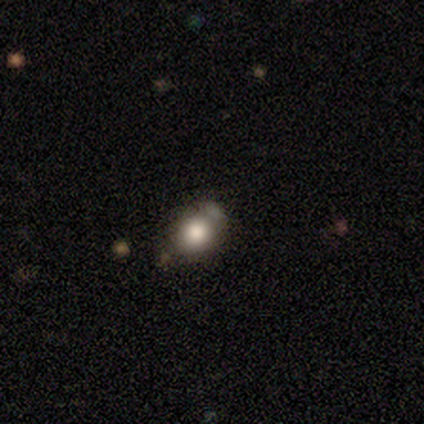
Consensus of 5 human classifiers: Volunteers were most divided on "smooth or featured": smooth: 60%, featured or disk: 40%, star or artifact: 0%. More confident: merging — none (80%); how rounded — in between (67%).